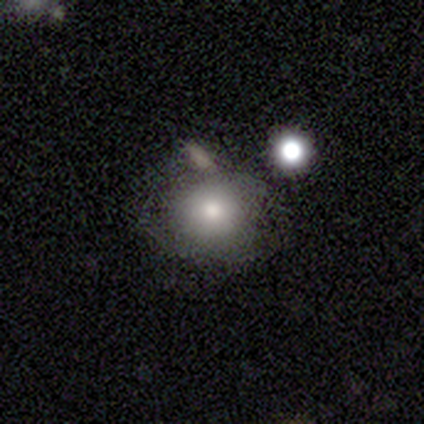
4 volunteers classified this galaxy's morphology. This appears to be a smooth galaxy with no disk features (75%) that is round (67%). Merging: none (50%).